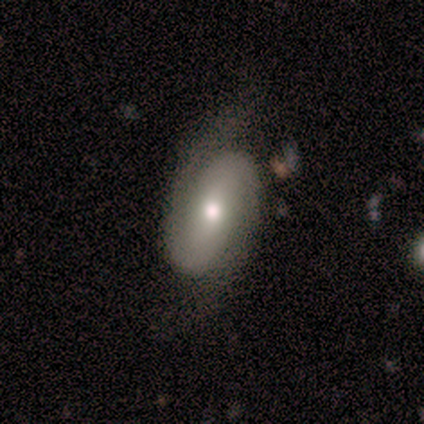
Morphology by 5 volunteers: Overall: featured or disk (100%). Edge-on disk: no (100%). Bar: weak (60%; strong 20%). Spiral arms: yes (100%). Spiral arm count: 2 (100%). Spiral winding: medium (60%; loose 40%). Bulge size: moderate (80%). Merging: none (80%).